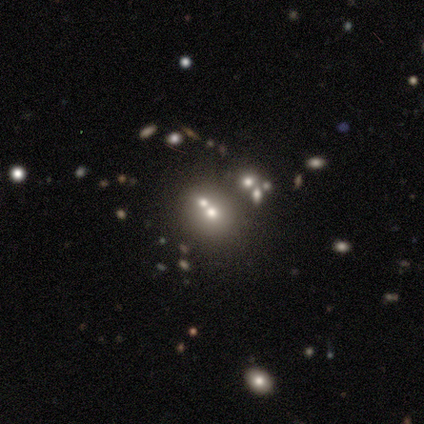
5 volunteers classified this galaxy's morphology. smooth_or_featured: smooth (p=0.60) [alt: featured or disk p=0.20]
how_rounded: round (p=0.67) [alt: in between p=0.33]
merging: merger (p=0.50) [alt: none p=0.25]